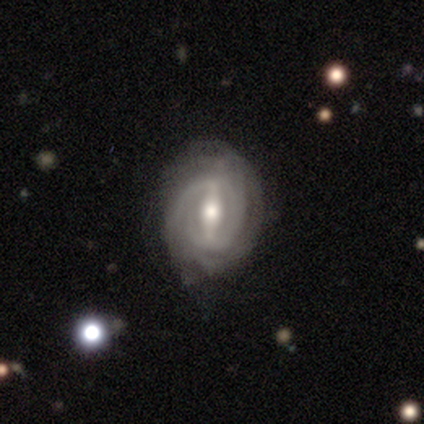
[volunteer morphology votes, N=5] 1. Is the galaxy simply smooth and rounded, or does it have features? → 100% featured or disk, 0% smooth, 0% star or artifact.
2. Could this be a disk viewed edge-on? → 100% no, 0% yes.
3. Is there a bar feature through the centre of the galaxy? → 60% weak, 40% strong, 0% no.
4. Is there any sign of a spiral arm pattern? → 100% yes, 0% no.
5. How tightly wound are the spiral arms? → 80% tight, 20% medium, 0% loose.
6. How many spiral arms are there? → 60% can't tell, 20% 2, 20% 4, 0% 1, 0% 3, 0% more than 4.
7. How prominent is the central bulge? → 80% moderate, 20% small, 0% dominant, 0% large, 0% none.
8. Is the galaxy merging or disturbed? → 60% minor disturbance, 40% none, 0% major disturbance, 0% merger.